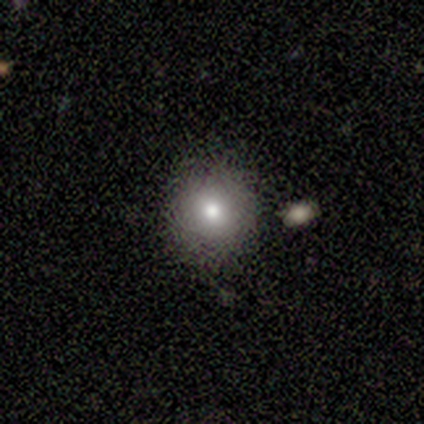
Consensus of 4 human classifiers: This appears to be a smooth galaxy with no disk features (100%) that is round (100%). Merging: none (75%).